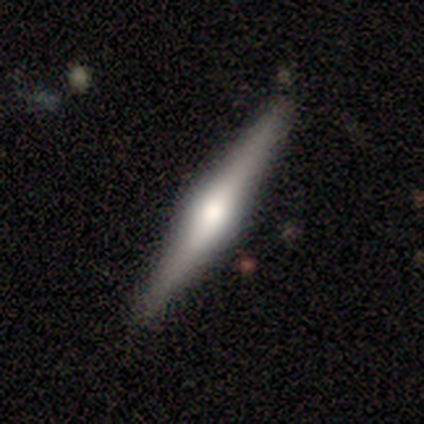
Smooth or featured? featured or disk (100%)
Edge-on disk? yes (100%)
Edge-on bulge? rounded (100%)
Merging? none (80%)